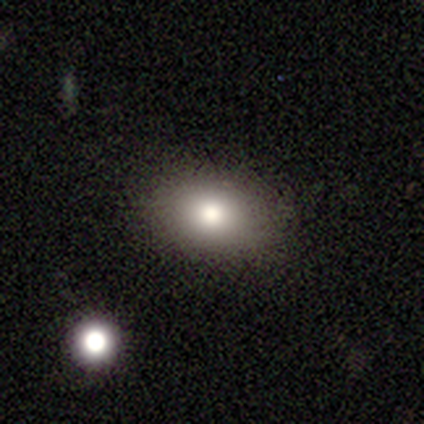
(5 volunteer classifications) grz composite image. It shows a smooth galaxy with no disk features (40%, tied with star or artifact) that is in between round and cigar-shaped (100%). Merging: none (100%).